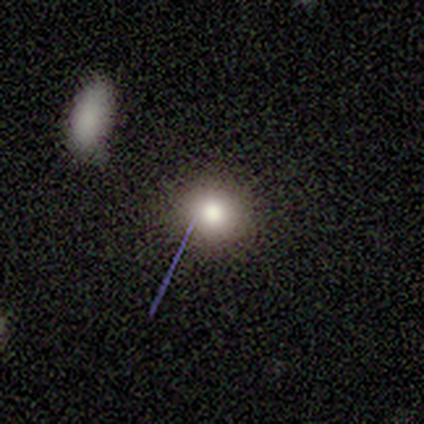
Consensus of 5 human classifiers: Q: Smooth or featured?
A: smooth (80%); runner-up: star or artifact (20%)
Q: How rounded?
A: round (100%)
Q: Merging?
A: none (100%)